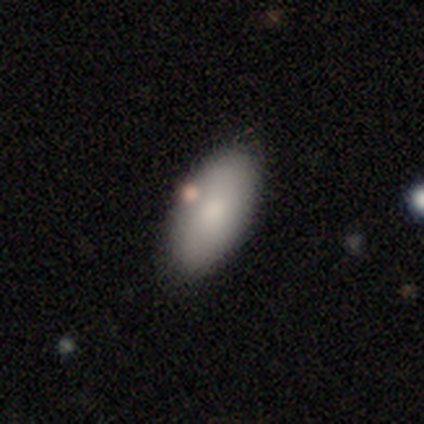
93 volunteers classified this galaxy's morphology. Smooth or featured: smooth — 83% (featured or disk — 15%)
How rounded: in between — 91% (cigar-shaped — 8%)
Merging: none — 82% (minor disturbance — 12%)